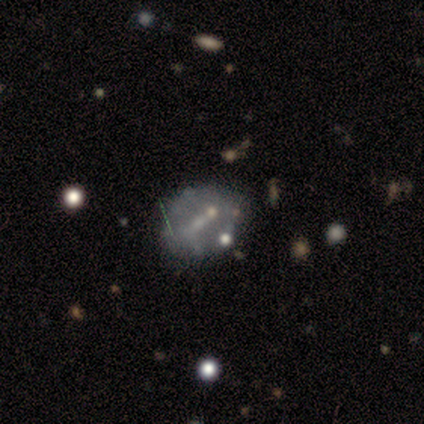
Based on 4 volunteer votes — Smooth or featured?
  - smooth: 50% *
  - featured or disk: 25%
  - star or artifact: 25%
How rounded?
  - in between: 100% *
  - round: 0%
  - cigar-shaped: 0%
Merging?
  - none: 67% *
  - minor disturbance: 33%
  - major disturbance: 0%
  - merger: 0%